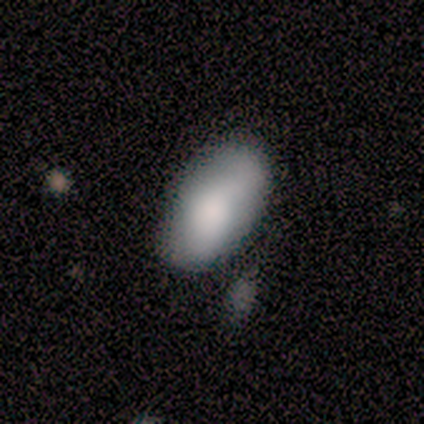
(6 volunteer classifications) This appears to be a smooth galaxy with no disk features (83%) that is in between round and cigar-shaped (80%). Merging: minor disturbance (60%).